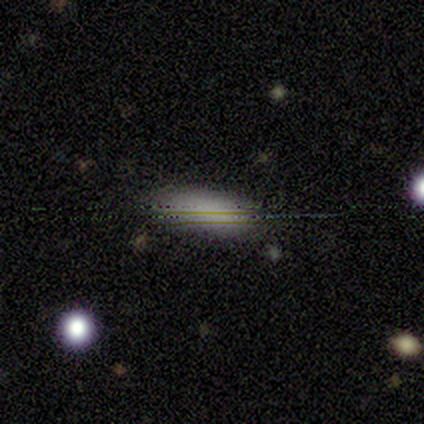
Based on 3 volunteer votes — Overall: smooth (100%). How rounded: in between (67%; cigar-shaped 33%). Merging: none (100%).